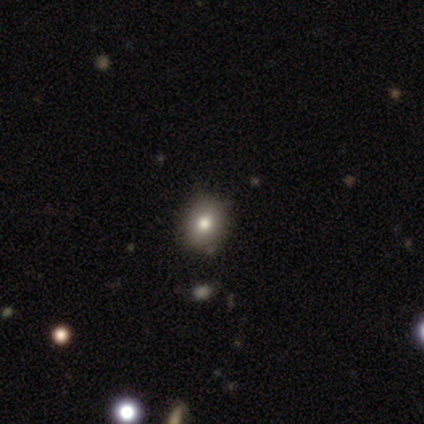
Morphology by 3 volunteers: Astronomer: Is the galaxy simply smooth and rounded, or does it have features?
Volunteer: star or artifact — 67%.